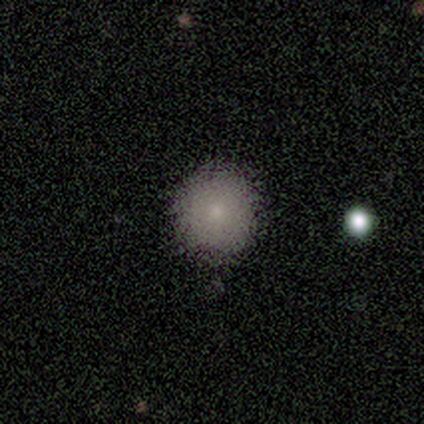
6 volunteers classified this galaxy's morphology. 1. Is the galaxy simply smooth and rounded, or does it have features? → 100% smooth, 0% featured or disk, 0% star or artifact.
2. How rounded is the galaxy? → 100% round, 0% in between, 0% cigar-shaped.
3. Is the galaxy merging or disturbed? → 100% none, 0% minor disturbance, 0% major disturbance, 0% merger.